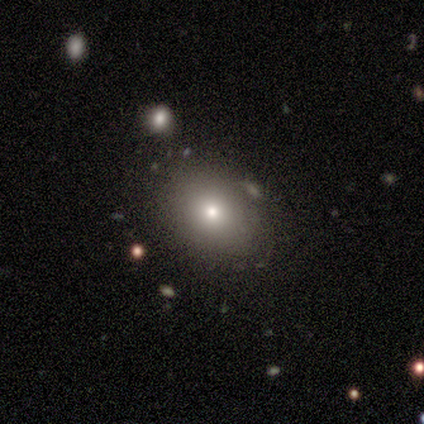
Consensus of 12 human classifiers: smooth-or-featured: smooth: 75% | star or artifact: 17% | featured or disk: 8%
  how-rounded: round: 56% | in between: 44% | cigar-shaped: 0%
  merging: none: 60% | minor disturbance: 30% | merger: 10% | major disturbance: 0%